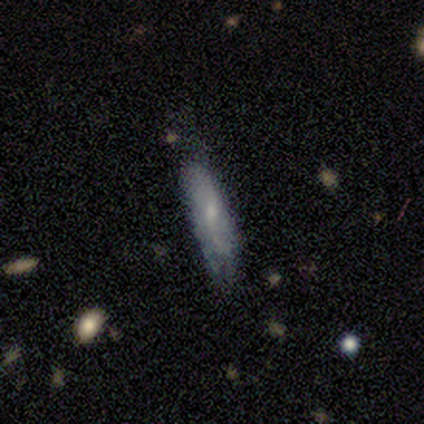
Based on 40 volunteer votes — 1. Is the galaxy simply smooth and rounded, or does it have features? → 68% smooth, 28% featured or disk, 5% star or artifact.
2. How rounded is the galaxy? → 56% cigar-shaped, 44% in between, 0% round.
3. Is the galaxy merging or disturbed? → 63% none, 37% minor disturbance, 0% major disturbance, 0% merger.